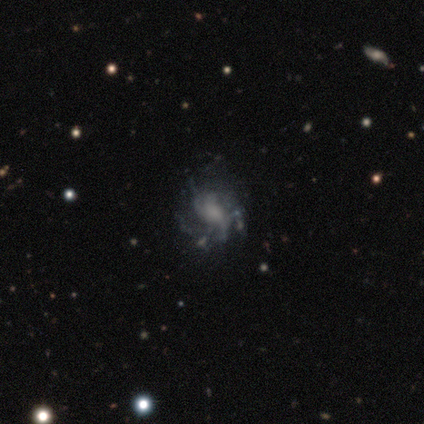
This appears to be a featured or disk galaxy (80%) with no bar (75%), 2 (50%) loose (75%) spiral arms (100%) and no central bulge (50%). Merging: none (40%, tied with minor disturbance).